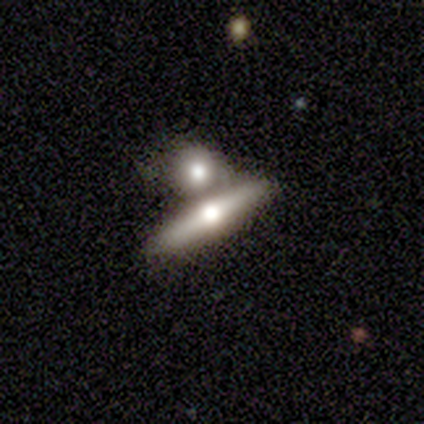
This appears to be a smooth galaxy with no disk features (40%, tied with featured or disk) that is round (50%, tied with cigar-shaped). Merging: merger (100%).